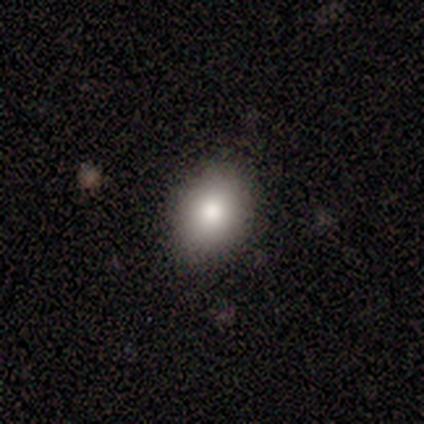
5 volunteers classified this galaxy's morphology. This appears to be a smooth galaxy with no disk features (80%) that is in between round and cigar-shaped (75%). Merging: none (80%).